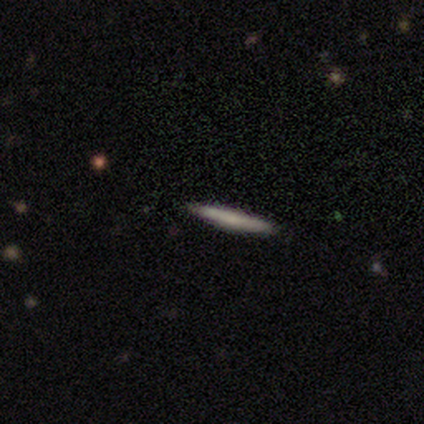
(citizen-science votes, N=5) This is clearly a smooth galaxy (80%). How rounded: clearly cigar-shaped (100%). Merging: clearly none (100%).